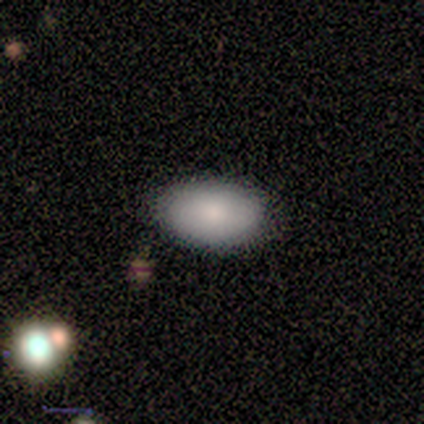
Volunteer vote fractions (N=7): Smooth or featured? 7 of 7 (100%) said smooth. How rounded? 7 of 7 (100%) said in between. Merging? 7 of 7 (100%) said none.